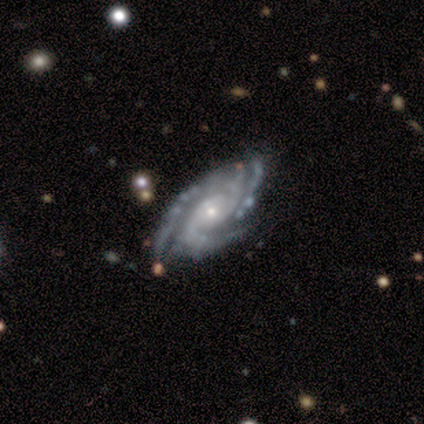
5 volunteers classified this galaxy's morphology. Smooth or featured? 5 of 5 (100%) said featured or disk. Edge-on disk? 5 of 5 (100%) said no. Bar? 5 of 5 (100%) said no. Spiral arms? 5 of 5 (100%) said yes. Spiral winding? 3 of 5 (60%) said tight. Spiral arm count? 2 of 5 (40%, tied with 3) said 2. Bulge size? 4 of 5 (80%) said small. Merging? 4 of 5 (80%) said none.